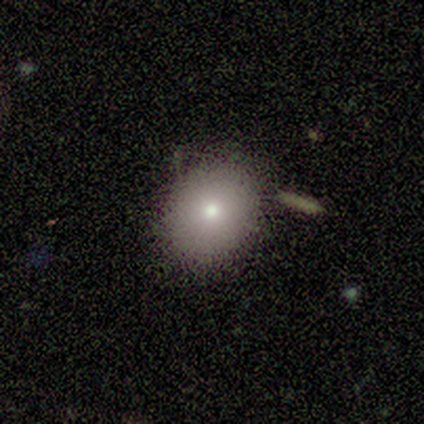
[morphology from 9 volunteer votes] A smooth galaxy with no disk features (100%) that is round (67%).

Vote fractions:
- Smooth or featured? smooth: 100% / featured or disk: 0% / star or artifact: 0%
- How rounded? round: 67% / in between: 33% / cigar-shaped: 0%
- Merging? none: 89% / merger: 11% / minor disturbance: 0% / major disturbance: 0%